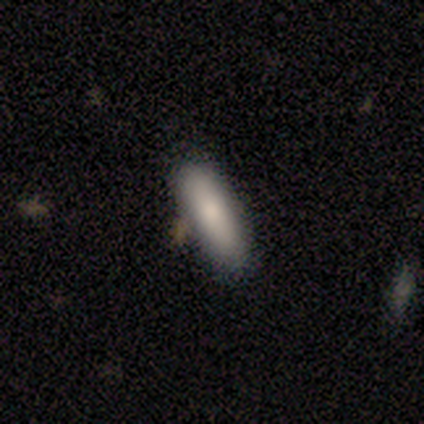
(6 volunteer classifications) Smooth or featured? smooth (50%, tied with featured or disk)
How rounded? in between (67%)
Merging? none (100%)